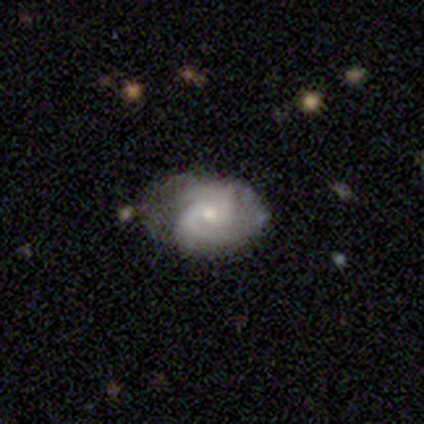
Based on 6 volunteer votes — This appears to be a featured or disk galaxy (83%) with no bar (100%), 2 (60%) medium (60%) spiral arms (100%) and a moderate central bulge (60%). Merging: none (50%, tied with minor disturbance).